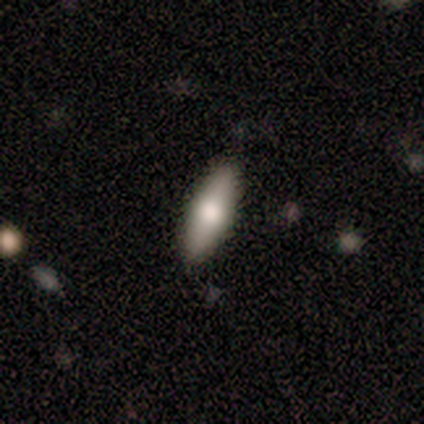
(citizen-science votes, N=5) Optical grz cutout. It shows a featured or disk galaxy (60%) viewed edge-on (67%) with a rounded central bulge (100%). Merging: none (100%).